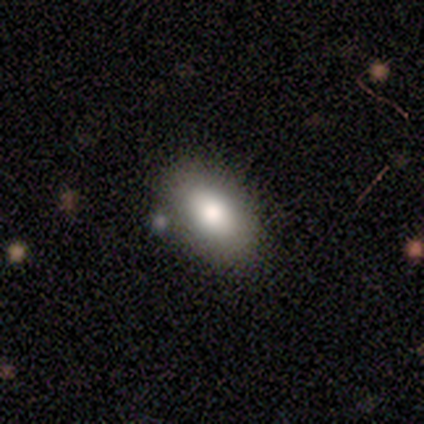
Volunteers were most divided on "how rounded": in between: 75%, round: 25%, cigar-shaped: 0%. More confident: smooth or featured — smooth (80%); merging — none (80%).